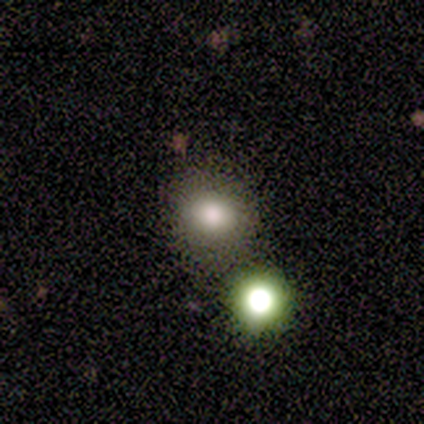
This is likely a star or artifact rather than a galaxy (60%).